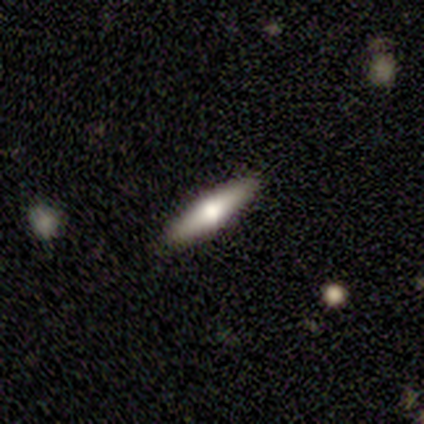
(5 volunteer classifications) A featured or disk galaxy (60%) viewed edge-on (67%) with a rounded central bulge (100%).

Vote fractions:
- Smooth or featured? featured or disk: 60% / smooth: 40% / star or artifact: 0%
- Edge-on disk? yes: 67% / no: 33%
- Edge-on bulge? rounded: 100% / boxy: 0% / none: 0%
- Merging? none: 100% / minor disturbance: 0% / major disturbance: 0% / merger: 0%